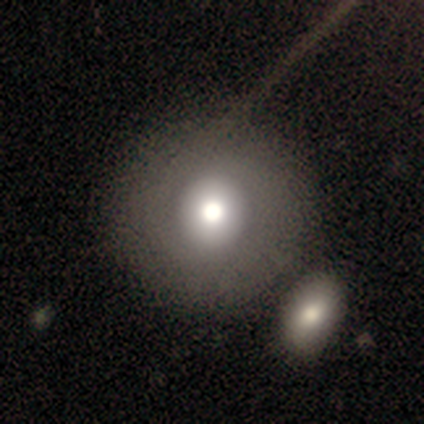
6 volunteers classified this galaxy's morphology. smooth 33% (tied), featured or disk 33% (tied), star or artifact 33% (tied). Down the decision tree: how rounded — round (100%); merging — none (75%).